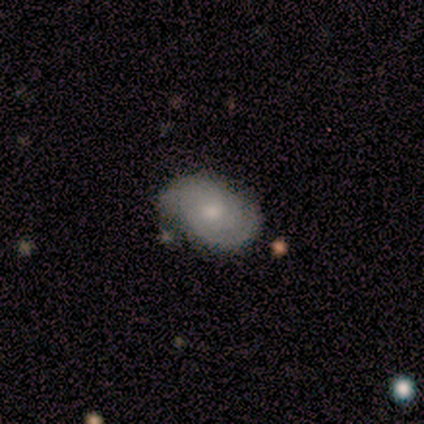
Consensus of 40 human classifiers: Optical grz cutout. It shows a featured or disk galaxy (80%) with no bar (90%), 2 (59%) tight (59%) spiral arms (87%) and a moderate central bulge (61%). Merging: none (68%).